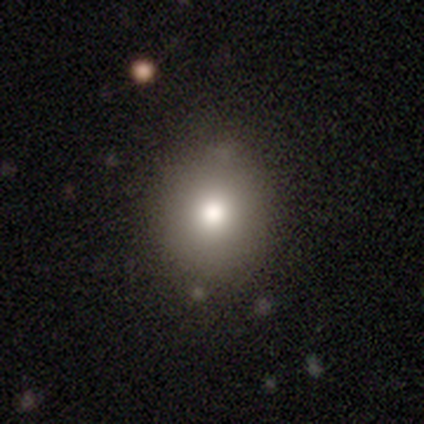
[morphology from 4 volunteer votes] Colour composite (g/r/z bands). It shows a smooth galaxy with no disk features (100%) that is round (100%). Merging: none (75%).